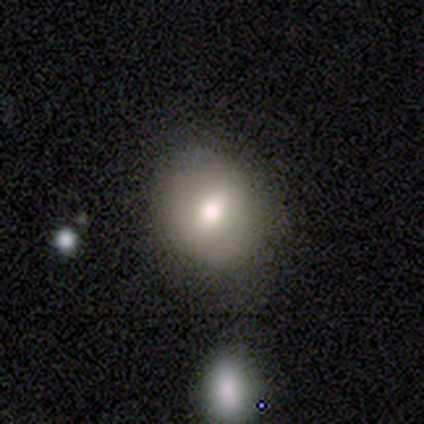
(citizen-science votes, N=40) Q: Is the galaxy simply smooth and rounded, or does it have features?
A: smooth — 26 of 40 (65%).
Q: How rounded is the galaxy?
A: round — 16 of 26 (62%).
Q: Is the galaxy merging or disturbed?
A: none — 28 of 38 (74%).